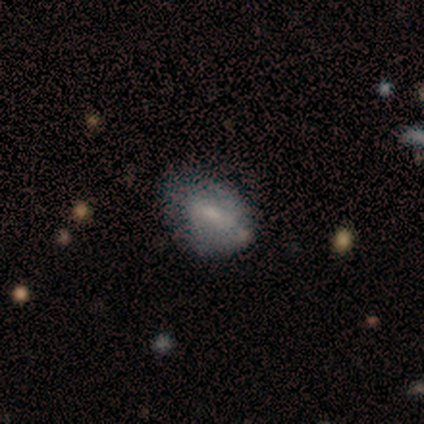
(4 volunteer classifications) This is possibly a smooth galaxy (50%, tied with featured or disk). How rounded: clearly in between (100%). Merging: marginally none (25%, tied with minor disturbance, major disturbance and merger).